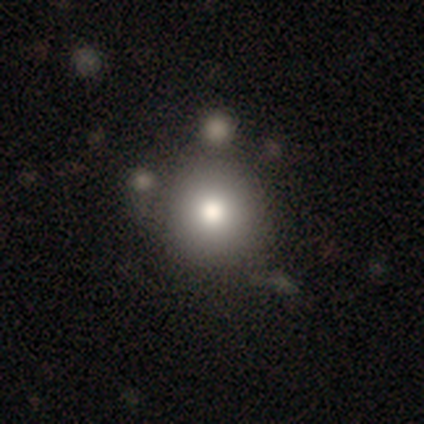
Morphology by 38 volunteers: Volunteers were most divided on "merging": none: 71%, merger: 17%, minor disturbance: 6%, major disturbance: 6%. More confident: how rounded — round (97%); smooth or featured — smooth (79%).